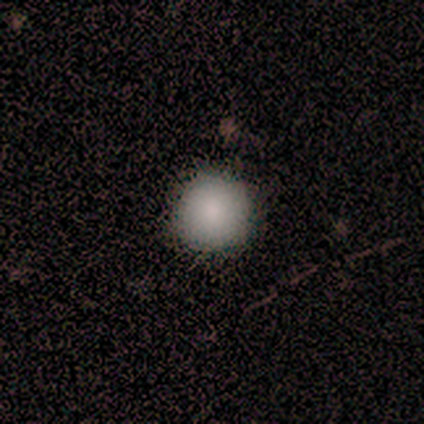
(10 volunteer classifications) Volunteers were most divided on "merging": none: 75%, minor disturbance: 25%, major disturbance: 0%, merger: 0%. More confident: how rounded — round (88%); smooth or featured — smooth (80%).